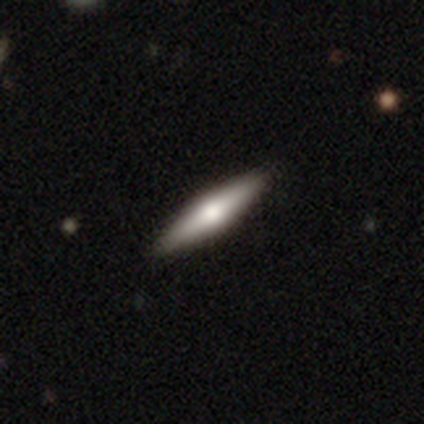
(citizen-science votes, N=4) smooth 100%, featured or disk 0%, star or artifact 0%. Down the decision tree: how rounded — cigar-shaped (100%); merging — none (75%).